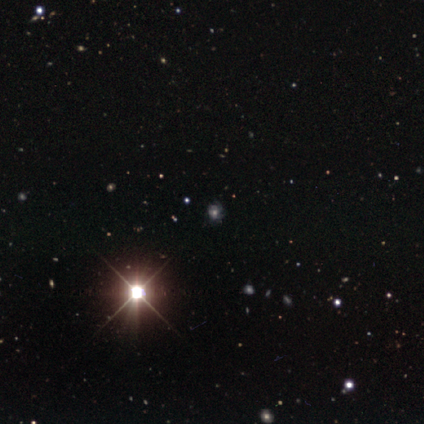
This is likely a star or artifact rather than a galaxy (75%).